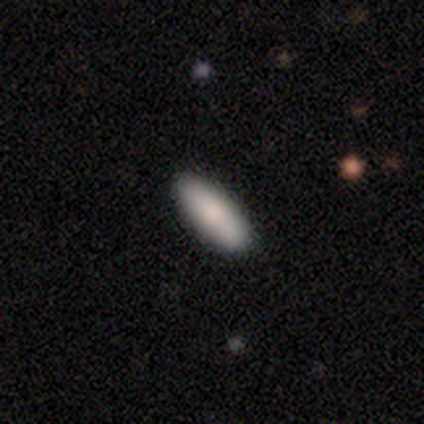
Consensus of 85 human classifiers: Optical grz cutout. It shows a smooth galaxy with no disk features (85%) that is in between round and cigar-shaped (60%). Merging: none (90%).